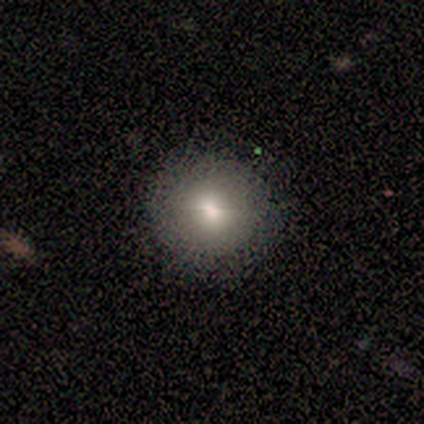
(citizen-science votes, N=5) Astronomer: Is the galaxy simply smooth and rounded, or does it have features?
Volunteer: smooth — 40%, tied with star or artifact at 40%.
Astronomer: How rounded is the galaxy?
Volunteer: round — 50%, tied with in between at 50%.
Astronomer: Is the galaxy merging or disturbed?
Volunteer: none — 67%.